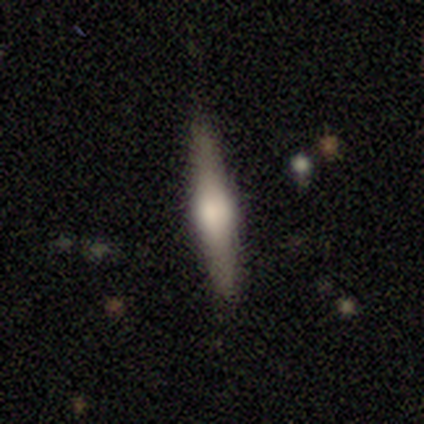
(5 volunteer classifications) A smooth galaxy with no disk features (80%) that is cigar-shaped (100%). Merging: none (80%).